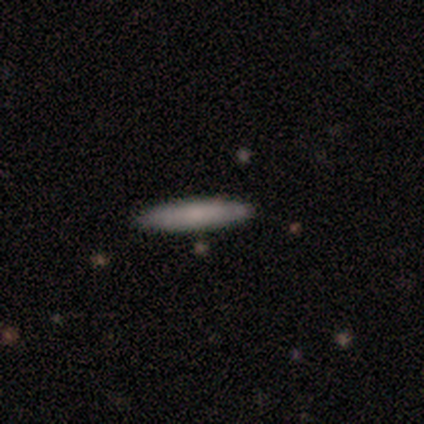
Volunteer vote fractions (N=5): A smooth galaxy with no disk features (80%) that is cigar-shaped (75%).

Vote fractions:
- Smooth or featured? smooth: 80% / star or artifact: 20% / featured or disk: 0%
- How rounded? cigar-shaped: 75% / in between: 25% / round: 0%
- Merging? none: 100% / minor disturbance: 0% / major disturbance: 0% / merger: 0%